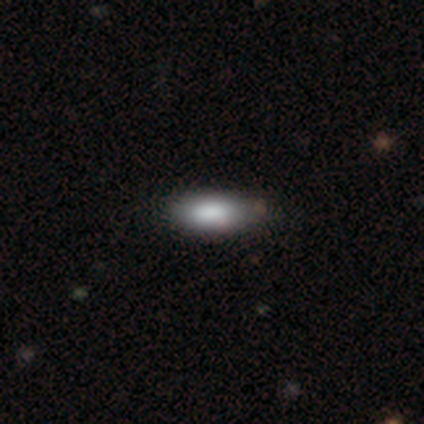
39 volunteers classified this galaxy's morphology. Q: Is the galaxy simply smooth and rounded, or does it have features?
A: smooth — 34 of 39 (87%).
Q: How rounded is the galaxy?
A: in between — 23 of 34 (68%).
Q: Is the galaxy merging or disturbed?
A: none — 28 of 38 (74%).